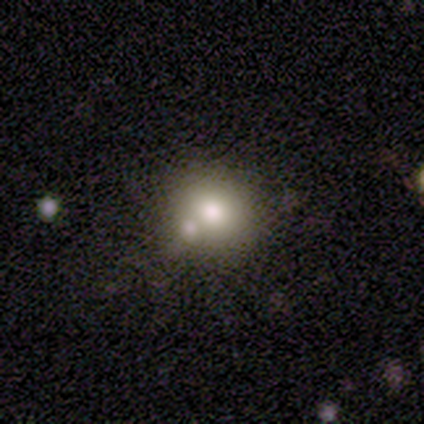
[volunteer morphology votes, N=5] A smooth galaxy with no disk features (60%) that is round (100%).

Vote fractions:
- Smooth or featured? smooth: 60% / featured or disk: 40% / star or artifact: 0%
- How rounded? round: 100% / in between: 0% / cigar-shaped: 0%
- Merging? none: 40% (tied) / minor disturbance: 40% (tied) / merger: 20% / major disturbance: 0%